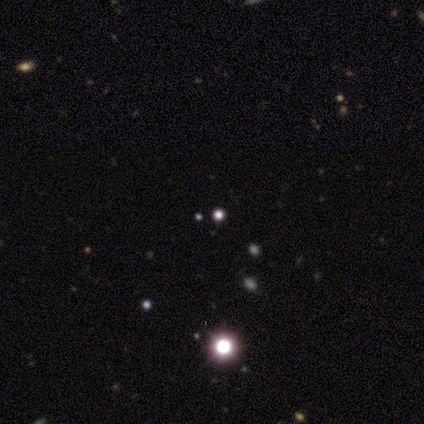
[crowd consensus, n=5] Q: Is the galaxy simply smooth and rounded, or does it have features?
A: star or artifact — 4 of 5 (80%).